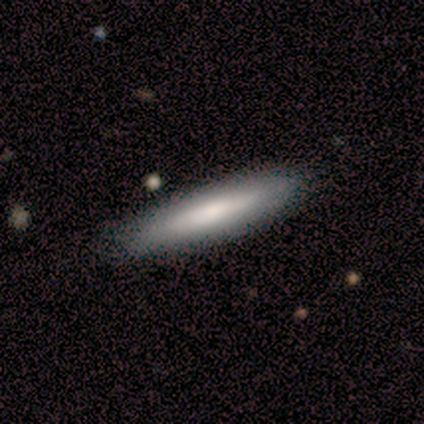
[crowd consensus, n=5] smooth-or-featured: smooth: 60% | featured or disk: 40% | star or artifact: 0%
  how-rounded: cigar-shaped: 100% | round: 0% | in between: 0%
  merging: none: 80% | minor disturbance: 20% | major disturbance: 0% | merger: 0%